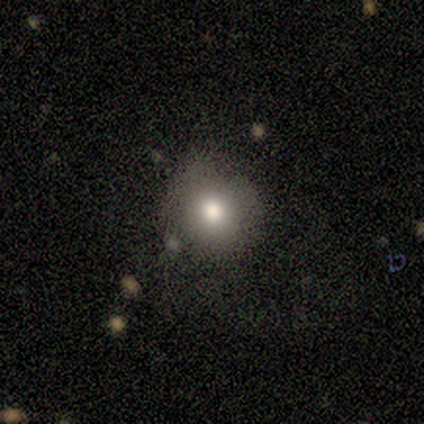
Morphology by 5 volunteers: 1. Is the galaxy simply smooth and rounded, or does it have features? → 60% smooth, 20% featured or disk, 20% star or artifact.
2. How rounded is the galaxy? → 100% round, 0% in between, 0% cigar-shaped.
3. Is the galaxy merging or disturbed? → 50% none, 25% major disturbance, 25% merger, 0% minor disturbance.